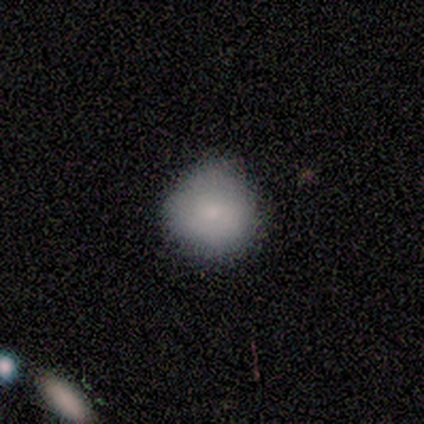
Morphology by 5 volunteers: smooth_or_featured: smooth (p=1.00)
how_rounded: round (p=1.00)
merging: none (p=0.80) [alt: minor disturbance p=0.20]